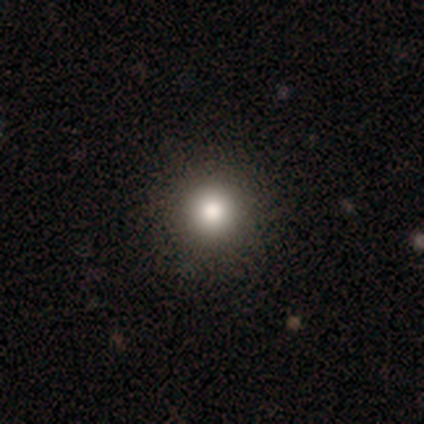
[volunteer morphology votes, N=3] Smooth or featured? 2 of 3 (67%) said smooth. How rounded? 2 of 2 (100%) said round. Merging? 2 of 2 (100%) said none.